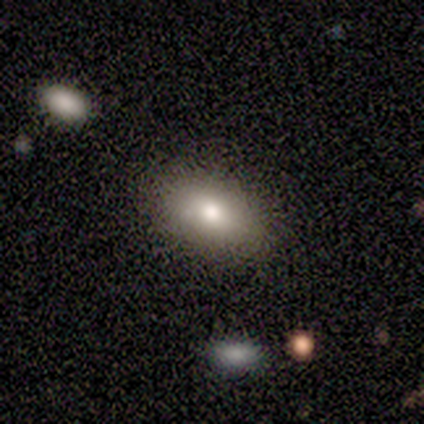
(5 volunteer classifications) This appears to be a smooth galaxy with no disk features (60%) that is in between round and cigar-shaped (67%). Merging: none (100%).